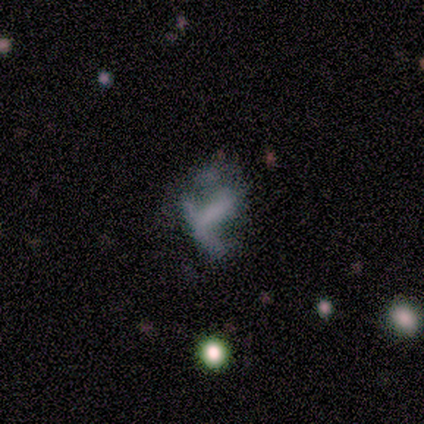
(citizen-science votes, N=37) A featured or disk galaxy (43%) with no bar (40%), no spiral arms (87%) and no central bulge (73%). Merging: none (38%, tied with major disturbance).